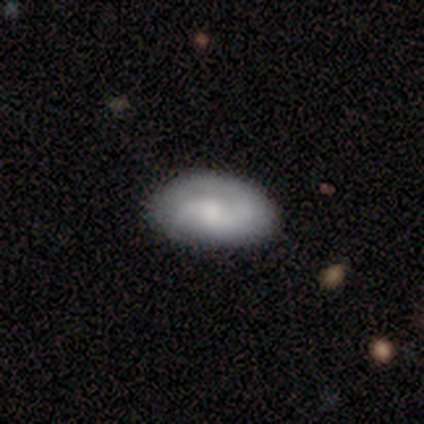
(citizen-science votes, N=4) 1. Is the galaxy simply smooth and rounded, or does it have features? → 50% smooth (tied), 50% featured or disk (tied), 0% star or artifact.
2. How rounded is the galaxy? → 50% round (tied), 50% in between (tied), 0% cigar-shaped.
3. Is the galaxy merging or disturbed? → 75% none, 25% minor disturbance, 0% major disturbance, 0% merger.